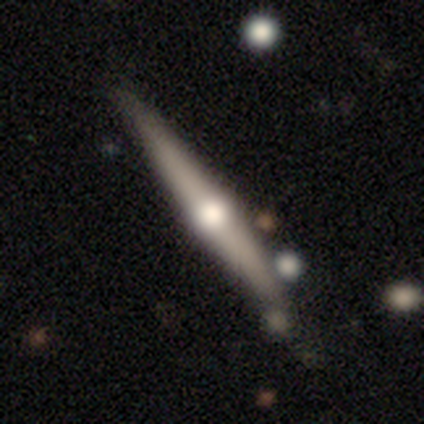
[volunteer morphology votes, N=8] Q: Smooth or featured?
A: featured or disk (88%); runner-up: smooth (12%)
Q: Edge-on disk?
A: yes (100%)
Q: Edge-on bulge?
A: rounded (100%)
Q: Merging?
A: none (88%); runner-up: minor disturbance (12%)